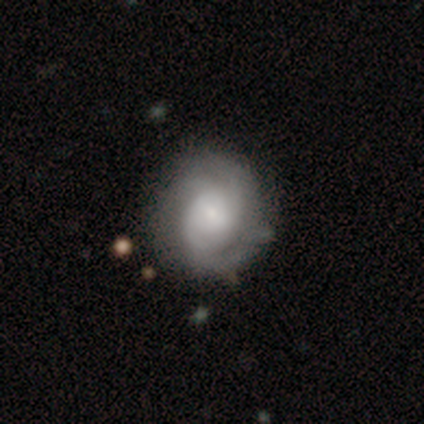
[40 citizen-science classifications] Smooth or featured: featured or disk — 78% (smooth — 18%)
Edge-on disk: no — 100%
Bar: no — 61% (weak — 39%)
Spiral arms: yes — 97% (no — 3%)
Spiral winding: tight — 50% (medium — 33%)
Spiral arm count: can't tell — 37% (2 — 33%)
Bulge size: small — 52% (large — 23%)
Merging: none — 42% (minor disturbance — 21%)